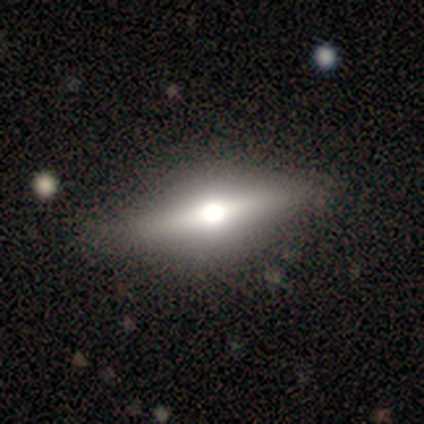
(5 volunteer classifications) smooth_or_featured: smooth (p=0.80) [alt: featured or disk p=0.20]
how_rounded: cigar-shaped (p=0.50) [alt: round p=0.25]
merging: none (p=1.00)